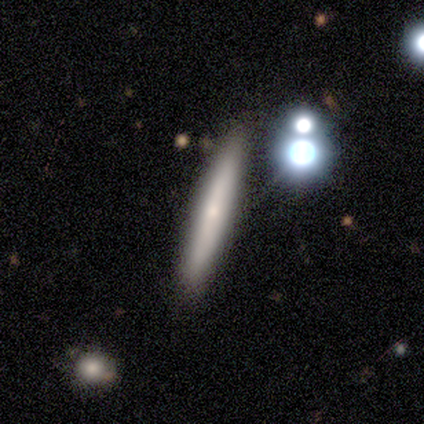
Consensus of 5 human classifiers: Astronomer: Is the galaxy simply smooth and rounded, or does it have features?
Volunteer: smooth — 60% (runner-up: featured or disk, 40%).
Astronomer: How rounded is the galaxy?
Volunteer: cigar-shaped — 100%.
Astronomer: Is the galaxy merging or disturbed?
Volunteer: none — 100%.